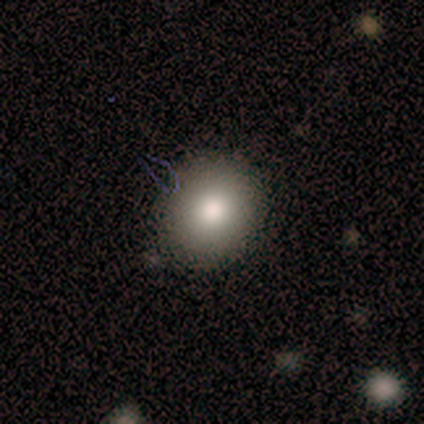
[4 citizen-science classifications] Smooth or featured?
  - smooth: 50% *
  - featured or disk: 25%
  - star or artifact: 25%
How rounded?
  - round: 100% *
  - in between: 0%
  - cigar-shaped: 0%
Merging?
  - none: 100% *
  - minor disturbance: 0%
  - major disturbance: 0%
  - merger: 0%